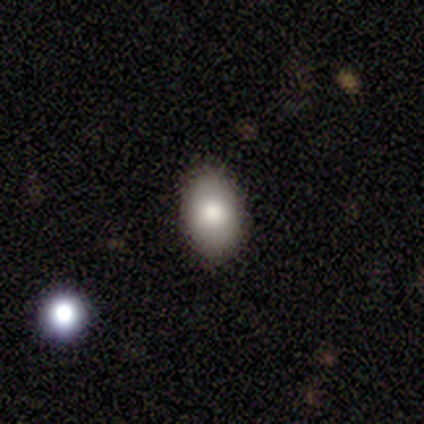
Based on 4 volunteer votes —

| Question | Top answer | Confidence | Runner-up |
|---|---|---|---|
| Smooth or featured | smooth | 50% | featured or disk (25%) |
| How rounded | in between | 100% | — |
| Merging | none | 100% | — |